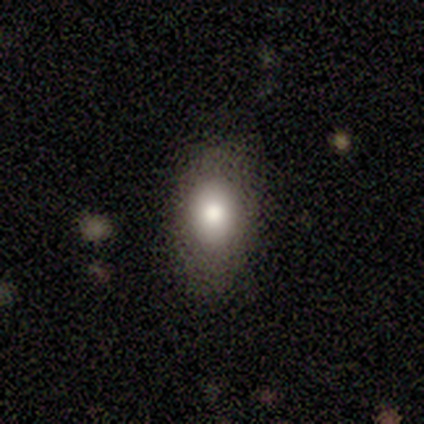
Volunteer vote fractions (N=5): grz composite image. It shows a smooth galaxy with no disk features (60%) that is in between round and cigar-shaped (67%). Merging: none (50%, tied with minor disturbance).